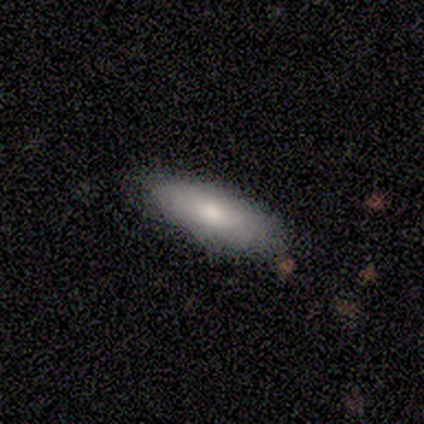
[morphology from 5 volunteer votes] Volunteers were most divided on "smooth or featured": smooth: 80%, featured or disk: 20%, star or artifact: 0%. More confident: how rounded — in between (100%); merging — none (80%).